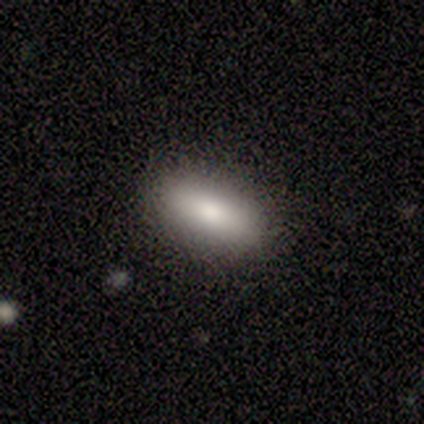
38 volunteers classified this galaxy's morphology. smooth_or_featured: smooth (p=0.87) [alt: featured or disk p=0.08]
how_rounded: in between (p=0.82) [alt: cigar-shaped p=0.18]
merging: none (p=0.89) [alt: minor disturbance p=0.06]